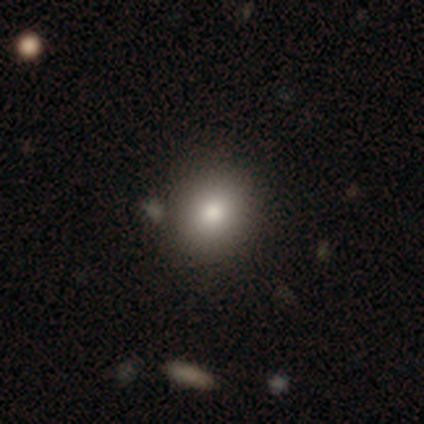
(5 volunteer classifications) Smooth or featured? 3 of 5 (60%) said smooth. How rounded? 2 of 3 (67%) said round. Merging? 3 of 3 (100%) said none.